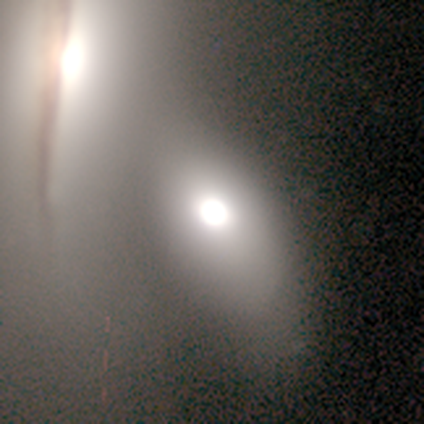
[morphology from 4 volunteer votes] A smooth galaxy with no disk features (50%) that is round (100%). Merging: none (100%).